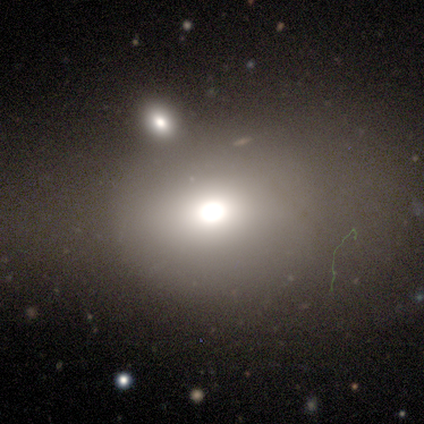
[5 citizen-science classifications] A smooth galaxy with no disk features (60%) that is round (100%).

Vote fractions:
- Smooth or featured? smooth: 60% / star or artifact: 40% / featured or disk: 0%
- How rounded? round: 100% / in between: 0% / cigar-shaped: 0%
- Merging? none: 100% / minor disturbance: 0% / major disturbance: 0% / merger: 0%